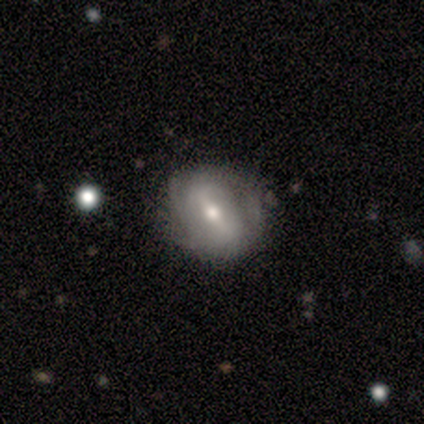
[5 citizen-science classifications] This appears to be a featured or disk galaxy (80%) with a weak bar (75%), 2 (50%, tied with can't tell) tight (50%, tied with medium) spiral arms (50%, tied with no) and a moderate central bulge (50%). Merging: major disturbance (50%).